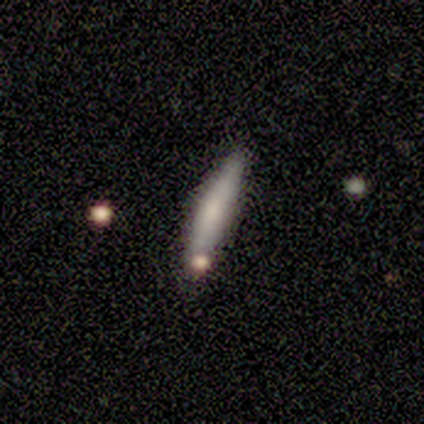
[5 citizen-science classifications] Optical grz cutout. It shows a smooth galaxy with no disk features (80%) that is cigar-shaped (100%). Merging: none (60%).